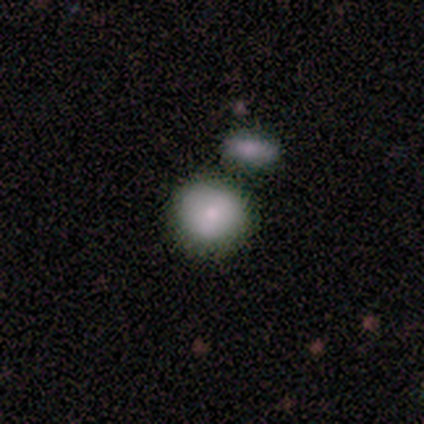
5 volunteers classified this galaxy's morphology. This is clearly a smooth galaxy (100%). How rounded: clearly round (80%). Merging: likely none (60%).